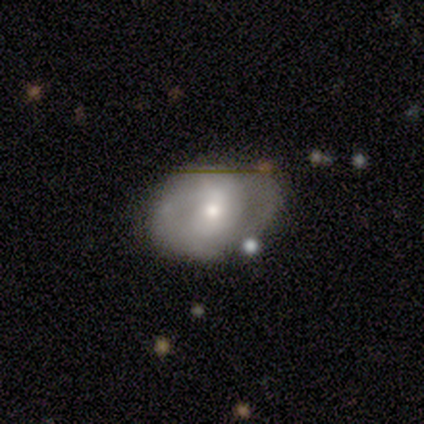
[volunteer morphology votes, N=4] smooth-or-featured: featured or disk: 50% | smooth: 25% | star or artifact: 25%
  disk-edge-on: no: 100% | yes: 0%
    bar: weak: 50% (tied) | no: 50% (tied) | strong: 0%
    has-spiral-arms: yes: 50% (tied) | no: 50% (tied)
      spiral-winding: medium: 100% | tight: 0% | loose: 0%
      spiral-arm-count: 2: 100% | 1: 0% | 3: 0% | 4: 0% | more than 4: 0% | can't tell: 0%
    bulge-size: moderate: 50% (tied) | small: 50% (tied) | dominant: 0% | large: 0% | none: 0%
  merging: none: 67% | minor disturbance: 33% | major disturbance: 0% | merger: 0%